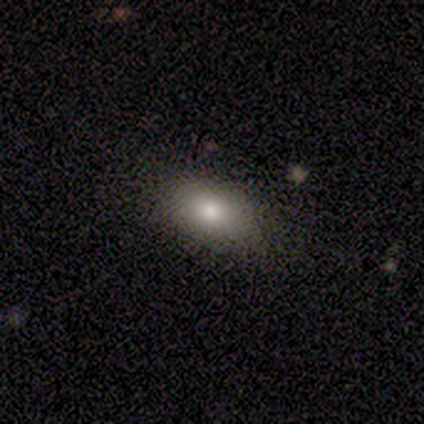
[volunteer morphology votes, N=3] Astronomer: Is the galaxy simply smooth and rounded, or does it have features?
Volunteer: smooth — 67%.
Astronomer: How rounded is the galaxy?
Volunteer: in between — 100%.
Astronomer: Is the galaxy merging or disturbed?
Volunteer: none — 67%.